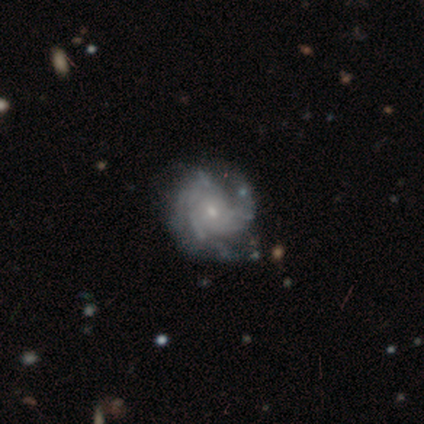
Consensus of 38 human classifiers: This is clearly a featured or disk galaxy (87%). It is clearly not viewed edge-on (97%). Bar: likely no (72%). Spiral arm pattern: clearly yes (91%). Spiral arm count: marginally can't tell (34%). Spiral winding: likely tight (69%). Central bulge: likely small (62%). Merging: possibly none (46%).